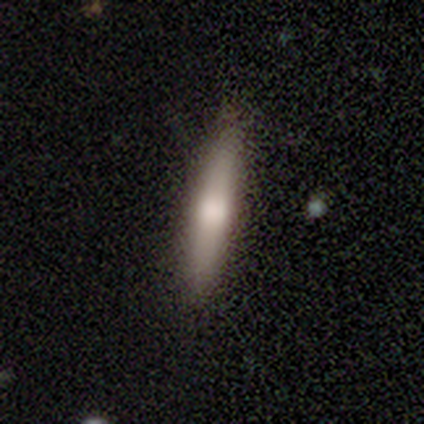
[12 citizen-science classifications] smooth_or_featured: smooth (p=0.75) [alt: featured or disk p=0.17]
how_rounded: cigar-shaped (p=1.00)
merging: none (p=0.91) [alt: minor disturbance p=0.09]